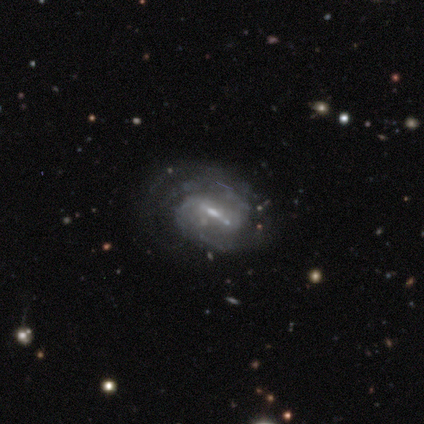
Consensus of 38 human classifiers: Smooth or featured? 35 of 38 (92%) said featured or disk. Edge-on disk? 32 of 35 (91%) said no. Bar? 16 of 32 (50%) said weak. Spiral arms? 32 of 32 (100%) said yes. Spiral winding? 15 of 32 (47%) said medium. Spiral arm count? 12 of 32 (38%, tied with can't tell) said 2. Bulge size? 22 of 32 (69%) said small. Merging? 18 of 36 (50%) said none.